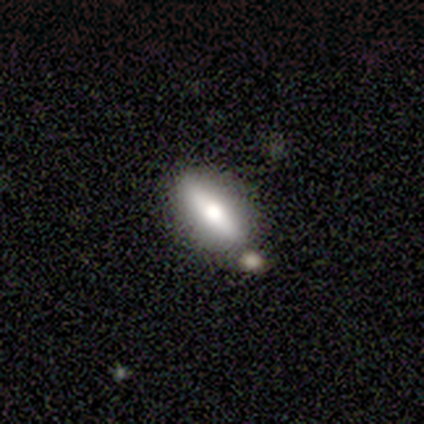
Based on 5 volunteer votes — Q: Smooth or featured?
A: smooth (60%); runner-up: featured or disk (40%)
Q: How rounded?
A: cigar-shaped (67%); runner-up: in between (33%)
Q: Merging?
A: none (80%); runner-up: minor disturbance (20%)